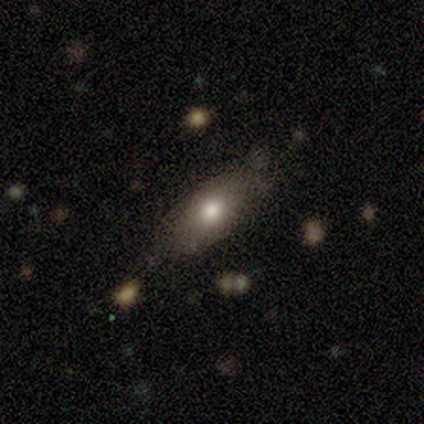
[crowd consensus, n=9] Volunteers were most divided on "merging": none: 62%, minor disturbance: 38%, major disturbance: 0%, merger: 0%. More confident: how rounded — in between (83%); smooth or featured — smooth (67%).